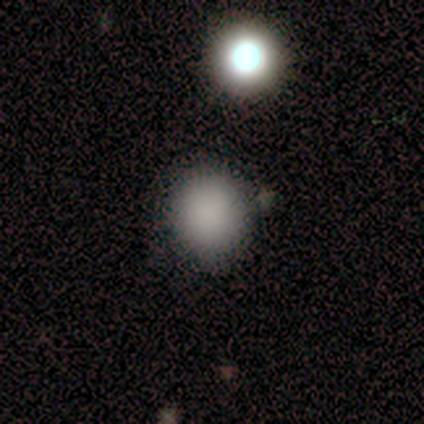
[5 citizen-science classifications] Q: Smooth or featured?
A: smooth (100%)
Q: How rounded?
A: round (80%); runner-up: in between (20%)
Q: Merging?
A: none (80%); runner-up: minor disturbance (20%)